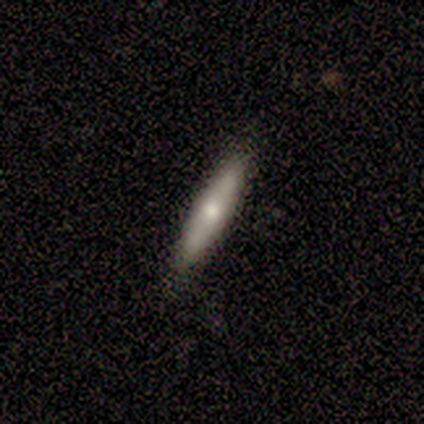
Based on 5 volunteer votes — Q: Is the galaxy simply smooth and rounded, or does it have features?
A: smooth — 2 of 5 (40%, tied with featured or disk).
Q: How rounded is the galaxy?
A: cigar-shaped — 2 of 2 (100%).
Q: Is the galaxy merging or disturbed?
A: none — 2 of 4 (50%).